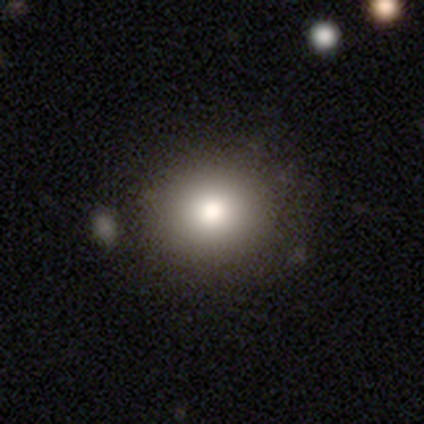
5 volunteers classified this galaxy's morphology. A smooth galaxy with no disk features (100%) that is round (80%).

Vote fractions:
- Smooth or featured? smooth: 100% / featured or disk: 0% / star or artifact: 0%
- How rounded? round: 80% / in between: 20% / cigar-shaped: 0%
- Merging? none: 60% / minor disturbance: 40% / major disturbance: 0% / merger: 0%